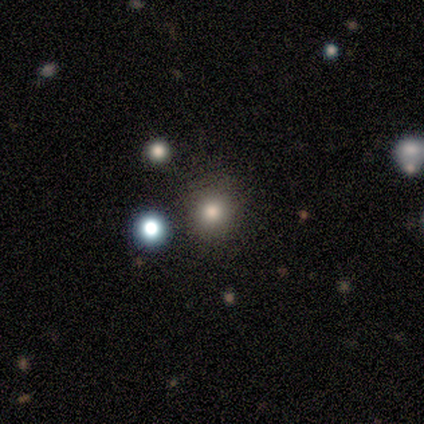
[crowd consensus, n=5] This is clearly a smooth galaxy (80%). How rounded: clearly round (100%). Merging: clearly none (100%).